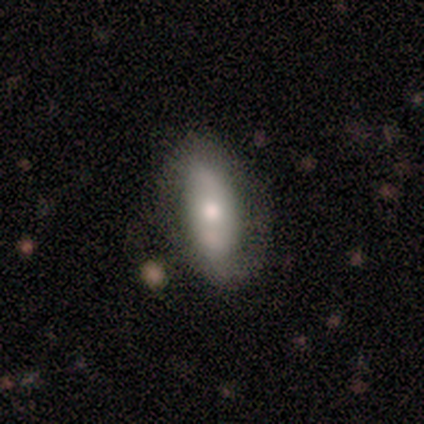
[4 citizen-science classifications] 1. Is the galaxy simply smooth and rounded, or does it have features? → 75% smooth, 25% featured or disk, 0% star or artifact.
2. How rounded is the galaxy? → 100% in between, 0% round, 0% cigar-shaped.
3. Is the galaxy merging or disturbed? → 75% none, 25% major disturbance, 0% minor disturbance, 0% merger.